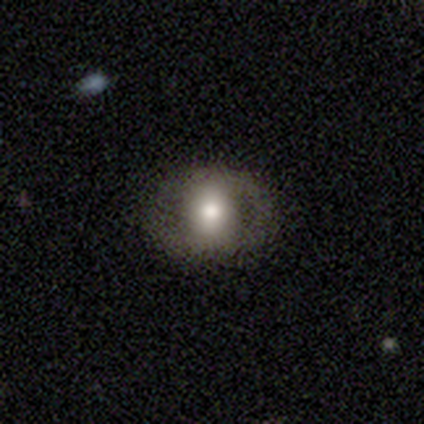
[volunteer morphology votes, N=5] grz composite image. It shows a smooth galaxy with no disk features (40%, tied with featured or disk) that is round (50%, tied with in between). Merging: none (50%).